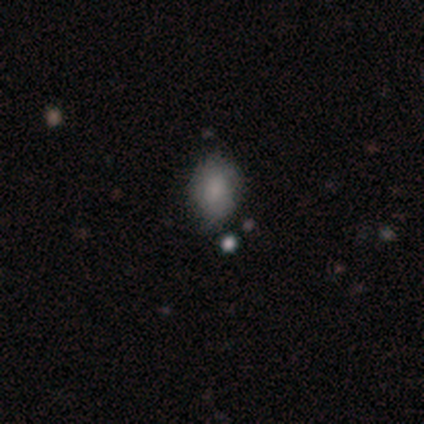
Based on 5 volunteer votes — smooth-or-featured: smooth: 60% | star or artifact: 40% | featured or disk: 0%
  how-rounded: in between: 100% | round: 0% | cigar-shaped: 0%
  merging: none: 100% | minor disturbance: 0% | major disturbance: 0% | merger: 0%